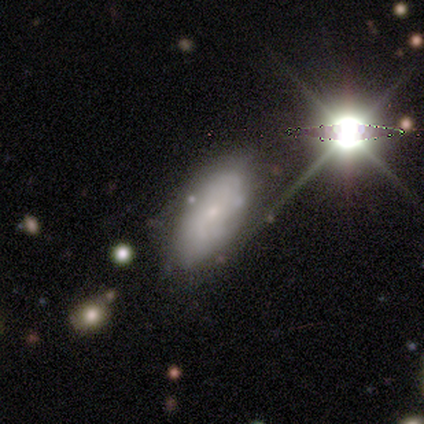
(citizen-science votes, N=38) smooth-or-featured: featured or disk: 50% | smooth: 32% | star or artifact: 18%
  disk-edge-on: no: 84% | yes: 16%
    bar: no: 62% | weak: 31% | strong: 6%
    has-spiral-arms: yes: 75% | no: 25%
      spiral-winding: tight: 58% | medium: 25% | loose: 17%
      spiral-arm-count: can't tell: 75% | 2: 17% | 1: 8% | 3: 0% | 4: 0% | more than 4: 0%
    bulge-size: small: 88% | large: 12% | dominant: 0% | moderate: 0% | none: 0%
  merging: none: 81% | minor disturbance: 16% | major disturbance: 3% | merger: 0%